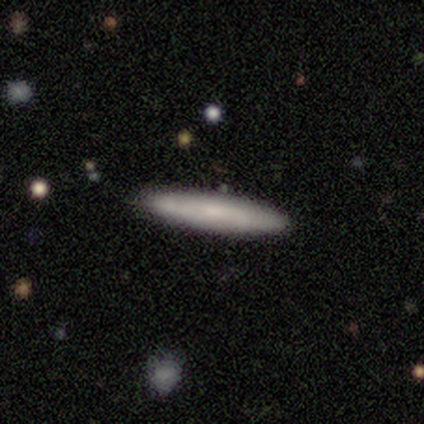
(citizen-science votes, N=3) smooth-or-featured: featured or disk: 67% | smooth: 33% | star or artifact: 0%
  disk-edge-on: yes: 100% | no: 0%
    edge-on-bulge: none: 50% (tied) | rounded: 50% (tied) | boxy: 0%
  merging: none: 100% | minor disturbance: 0% | major disturbance: 0% | merger: 0%